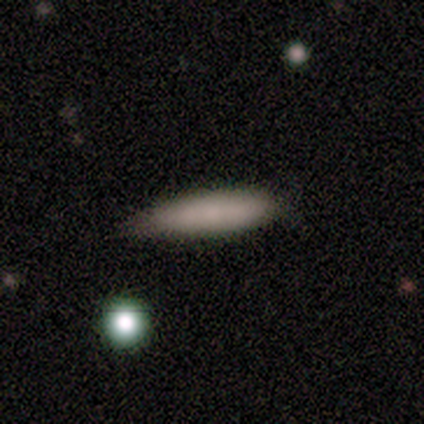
smooth 100%, featured or disk 0%, star or artifact 0%. Down the decision tree: how rounded — cigar-shaped (80%); merging — none (60%).